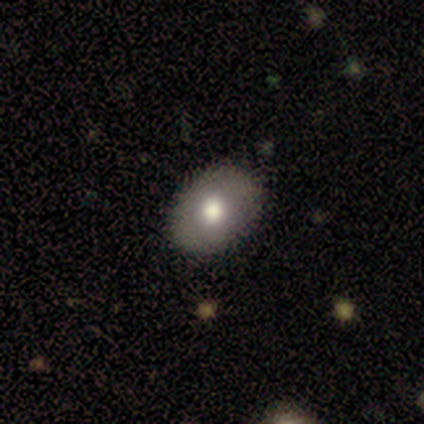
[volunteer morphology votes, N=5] This appears to be a featured or disk galaxy (80%) with no bar (75%), no spiral arms (75%) and a moderate central bulge (100%). Merging: none (80%).